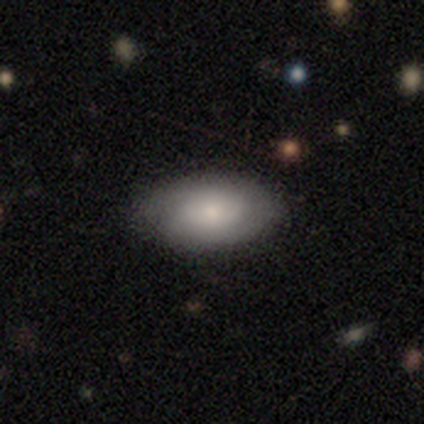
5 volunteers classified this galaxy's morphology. Smooth or featured: smooth — 60% (featured or disk — 40%)
How rounded: in between — 100%
Merging: none — 80% (minor disturbance — 20%)